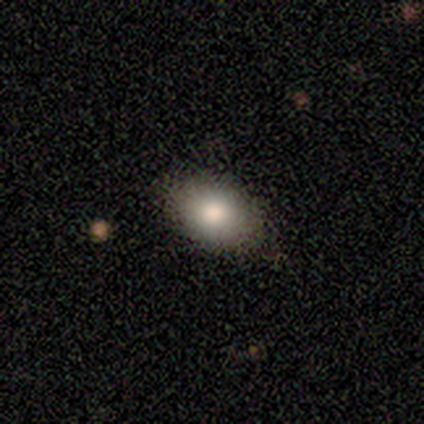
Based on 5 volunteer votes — Smooth or featured: smooth — 80% (star or artifact — 20%)
How rounded: in between — 75% (round — 25%)
Merging: none — 100%